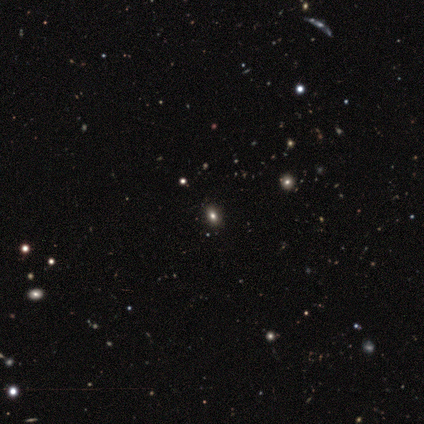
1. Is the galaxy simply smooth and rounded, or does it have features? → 60% smooth, 40% star or artifact, 0% featured or disk.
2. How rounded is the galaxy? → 100% in between, 0% round, 0% cigar-shaped.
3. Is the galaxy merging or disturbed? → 67% none, 33% minor disturbance, 0% major disturbance, 0% merger.